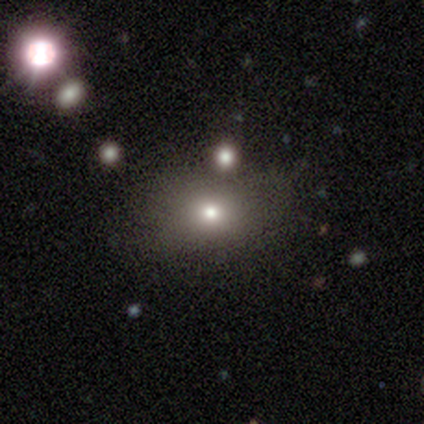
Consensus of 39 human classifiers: Q: Smooth or featured?
A: smooth (67%); runner-up: star or artifact (21%)
Q: How rounded?
A: in between (54%); runner-up: round (42%)
Q: Merging?
A: none (65%); runner-up: minor disturbance (23%)